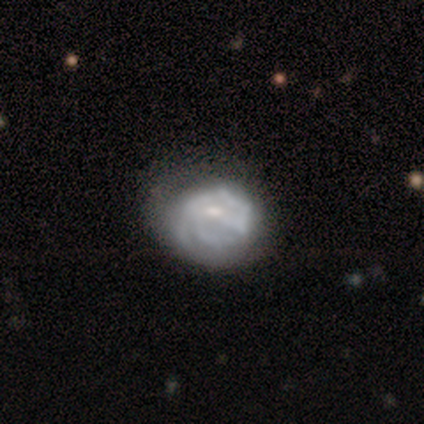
A featured or disk galaxy (40%, tied with star or artifact) with a strong bar (50%, tied with weak), 3 (50%, tied with can't tell) tight (100%) spiral arms (100%) and a moderate central bulge (50%, tied with small).

Vote fractions:
- Smooth or featured? featured or disk: 40% (tied) / star or artifact: 40% (tied) / smooth: 20%
- Edge-on disk? no: 100% / yes: 0%
- Bar? strong: 50% (tied) / weak: 50% (tied) / no: 0%
- Spiral arms? yes: 100% / no: 0%
- Spiral winding? tight: 100% / medium: 0% / loose: 0%
- Spiral arm count? 3: 50% (tied) / can't tell: 50% (tied) / 1: 0% / 2: 0% / 4: 0% / more than 4: 0%
- Bulge size? moderate: 50% (tied) / small: 50% (tied) / dominant: 0% / large: 0% / none: 0%
- Merging? none: 67% / major disturbance: 33% / minor disturbance: 0% / merger: 0%